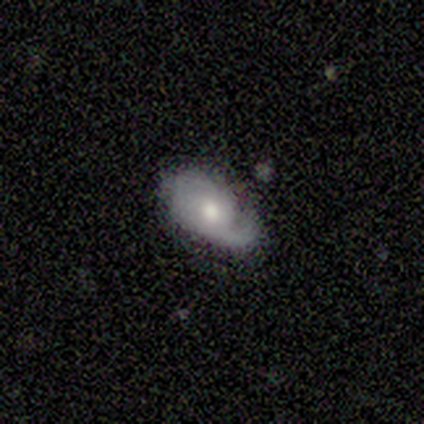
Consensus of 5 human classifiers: Overall: smooth (60%; featured or disk 40%). How rounded: round (67%; in between 33%). Merging: none (40%, tied with minor disturbance).